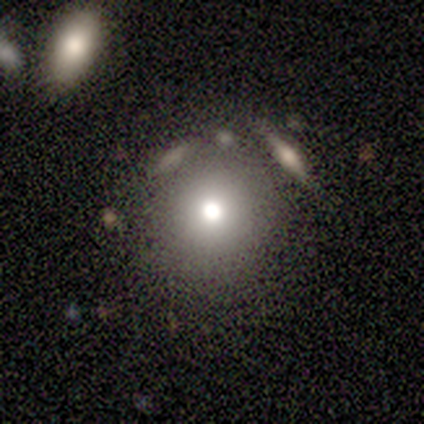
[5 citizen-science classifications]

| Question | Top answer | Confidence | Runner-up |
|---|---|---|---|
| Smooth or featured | smooth | 80% | star or artifact (20%) |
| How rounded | round | 100% | — |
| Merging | none | 100% | — |